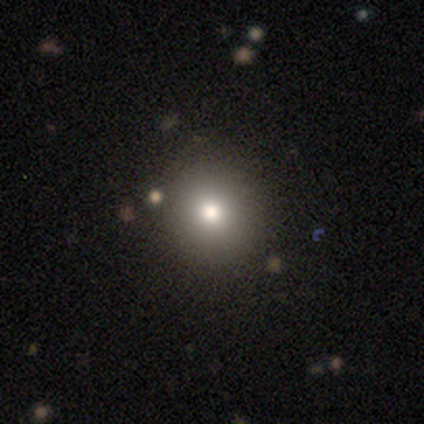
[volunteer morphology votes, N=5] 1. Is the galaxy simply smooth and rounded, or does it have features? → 80% smooth, 20% star or artifact, 0% featured or disk.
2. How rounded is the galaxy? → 100% round, 0% in between, 0% cigar-shaped.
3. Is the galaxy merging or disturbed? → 100% none, 0% minor disturbance, 0% major disturbance, 0% merger.